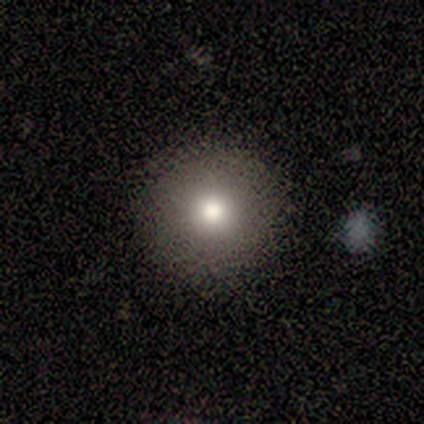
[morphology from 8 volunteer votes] Smooth or featured? smooth (62%)
How rounded? round (100%)
Merging? none (100%)